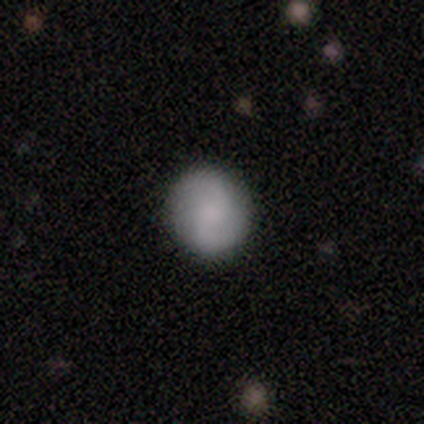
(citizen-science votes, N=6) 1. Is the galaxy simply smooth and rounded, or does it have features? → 50% smooth (tied), 50% featured or disk (tied), 0% star or artifact.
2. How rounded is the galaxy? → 67% in between, 33% round, 0% cigar-shaped.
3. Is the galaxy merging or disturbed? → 83% none, 17% minor disturbance, 0% major disturbance, 0% merger.